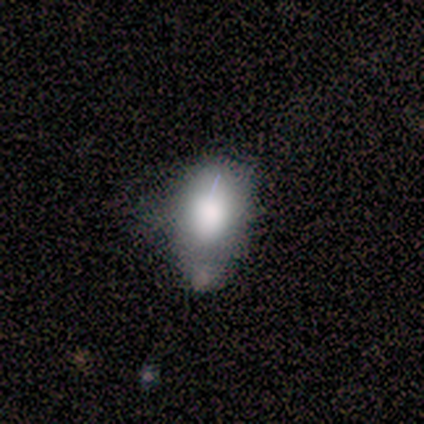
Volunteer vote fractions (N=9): Smooth or featured? smooth (33%, tied with featured or disk and star or artifact)
How rounded? in between (100%)
Merging? none (33%, tied with minor disturbance and major disturbance)